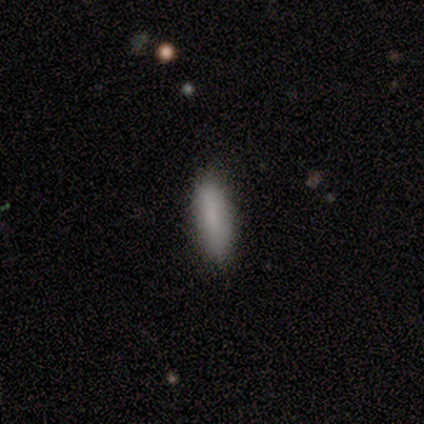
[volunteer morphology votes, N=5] A smooth galaxy with no disk features (100%) that is cigar-shaped (60%). Merging: none (80%).